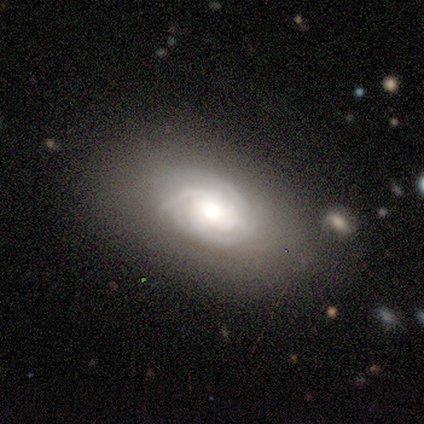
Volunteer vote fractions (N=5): Smooth or featured? featured or disk (100%)
Edge-on disk? no (100%)
Bar? no (80%)
Spiral arms? yes (80%)
Spiral winding? tight (75%)
Spiral arm count? 3 (100%)
Bulge size? moderate (60%)
Merging? none (100%)